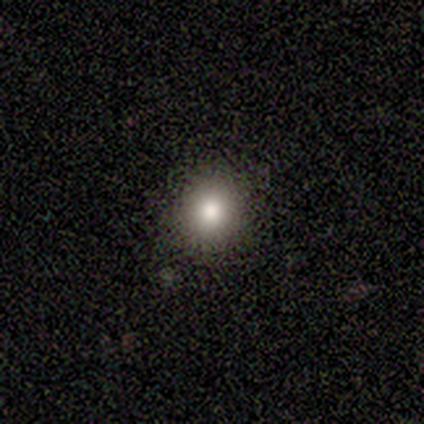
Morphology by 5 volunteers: smooth-or-featured: smooth: 80% | star or artifact: 20% | featured or disk: 0%
  how-rounded: round: 100% | in between: 0% | cigar-shaped: 0%
  merging: none: 100% | minor disturbance: 0% | major disturbance: 0% | merger: 0%